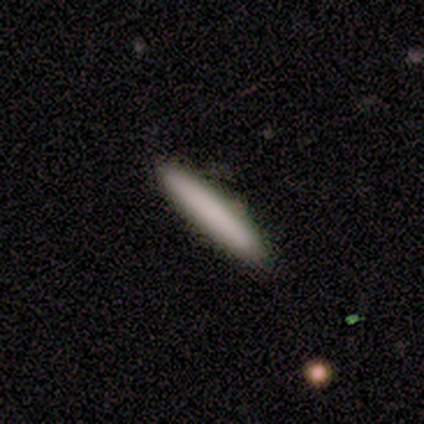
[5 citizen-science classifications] Morphology: type=smooth (80%); roundness=cigar-shaped (100%); merging=none (50%, tied with minor disturbance).